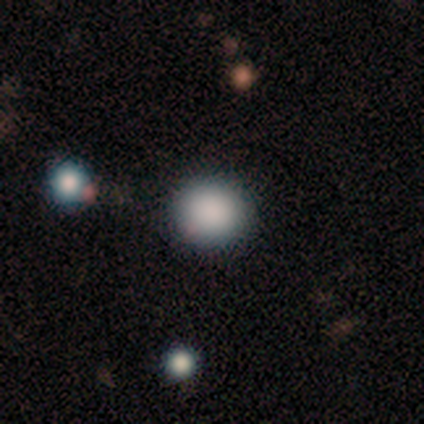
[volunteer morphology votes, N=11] Smooth or featured? smooth (91%)
How rounded? round (80%)
Merging? none (80%)